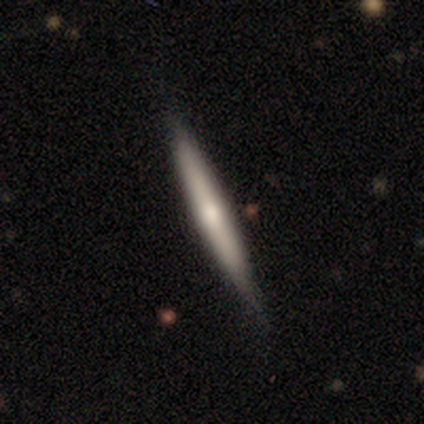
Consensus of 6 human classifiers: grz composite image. It shows a smooth galaxy with no disk features (50%, tied with featured or disk) that is cigar-shaped (100%). Merging: none (50%).